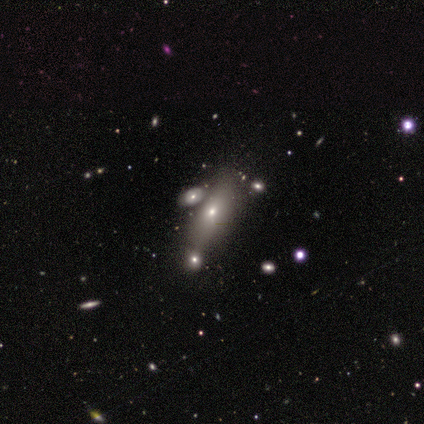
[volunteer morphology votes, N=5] Q: Smooth or featured?
A: smooth (60%); runner-up: featured or disk (40%)
Q: How rounded?
A: in between (67%); runner-up: cigar-shaped (33%)
Q: Merging?
A: merger (60%); runner-up: none (20%)